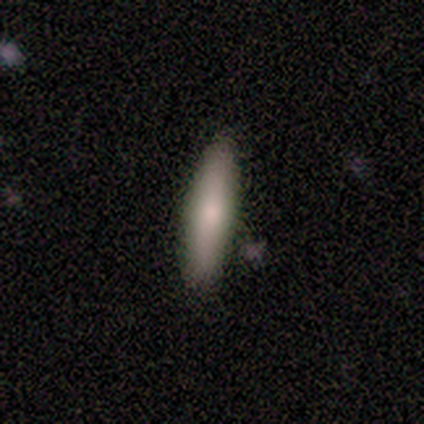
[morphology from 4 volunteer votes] A smooth galaxy with no disk features (75%) that is cigar-shaped (67%).

Vote fractions:
- Smooth or featured? smooth: 75% / featured or disk: 25% / star or artifact: 0%
- How rounded? cigar-shaped: 67% / in between: 33% / round: 0%
- Merging? none: 75% / minor disturbance: 25% / major disturbance: 0% / merger: 0%